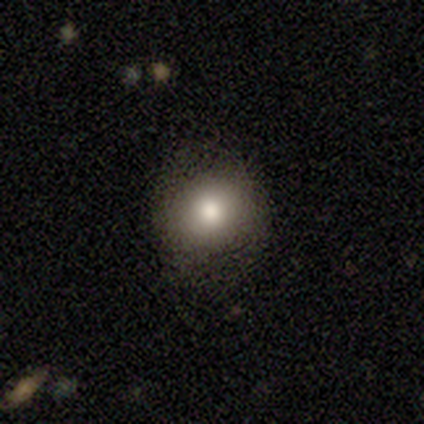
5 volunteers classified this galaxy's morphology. Smooth or featured: smooth — 100%
How rounded: round — 60% (in between — 40%)
Merging: none — 80% (major disturbance — 20%)